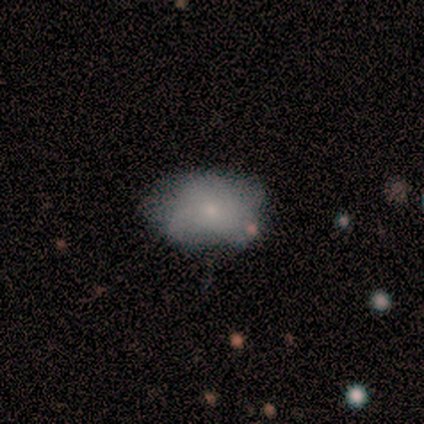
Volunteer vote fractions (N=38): Smooth or featured?
  - smooth: 66% *
  - featured or disk: 29%
  - star or artifact: 5%
How rounded?
  - in between: 100% *
  - round: 0%
  - cigar-shaped: 0%
Merging?
  - none: 72% *
  - minor disturbance: 17%
  - major disturbance: 11%
  - merger: 0%